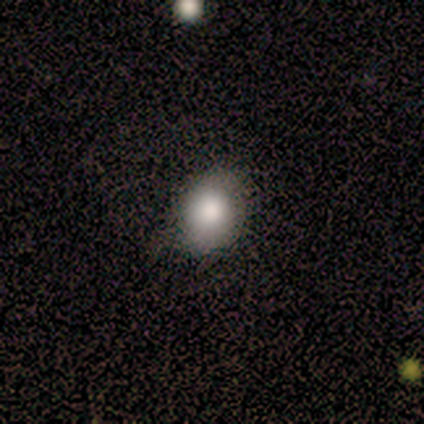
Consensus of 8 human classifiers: Volunteers were most divided on "how rounded": round: 60%, in between: 40%, cigar-shaped: 0%. More confident: merging — none (86%); smooth or featured — smooth (62%).